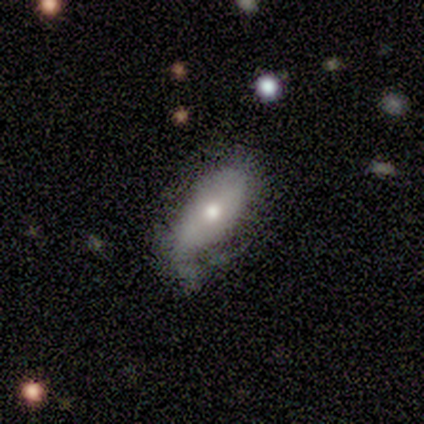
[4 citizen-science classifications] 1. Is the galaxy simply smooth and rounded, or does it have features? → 50% smooth (tied), 50% featured or disk (tied), 0% star or artifact.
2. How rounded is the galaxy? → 100% in between, 0% round, 0% cigar-shaped.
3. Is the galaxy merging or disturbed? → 50% minor disturbance, 25% none, 25% major disturbance, 0% merger.